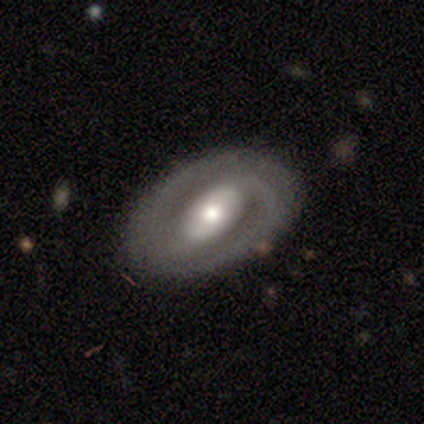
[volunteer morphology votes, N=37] smooth-or-featured: featured or disk: 76% | smooth: 24% | star or artifact: 0%
  disk-edge-on: no: 93% | yes: 7%
    bar: strong: 38% | weak: 31% | no: 31%
    has-spiral-arms: yes: 73% | no: 27%
      spiral-winding: tight: 37% | medium: 32% | loose: 32%
      spiral-arm-count: 2: 68% | can't tell: 26% | 1: 5% | 3: 0% | 4: 0% | more than 4: 0%
    bulge-size: moderate: 73% | large: 23% | dominant: 4% | small: 0% | none: 0%
  merging: none: 76% | major disturbance: 14% | minor disturbance: 11% | merger: 0%